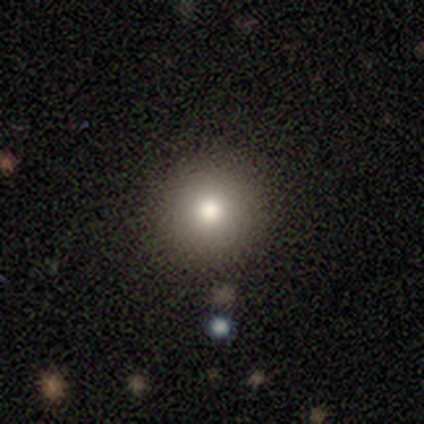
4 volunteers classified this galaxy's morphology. type=smooth (75%); roundness=round (100%); merging=none (100%).